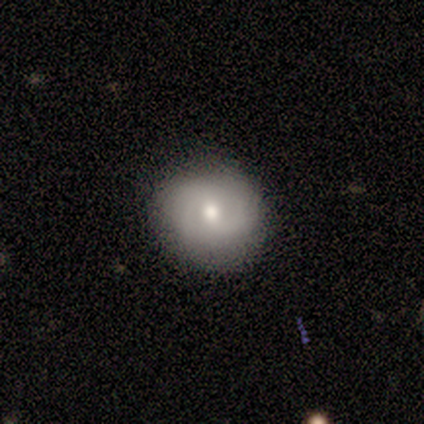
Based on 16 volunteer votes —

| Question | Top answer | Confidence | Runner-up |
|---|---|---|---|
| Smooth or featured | smooth | 56% | featured or disk (31%) |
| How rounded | round | 56% | in between (44%) |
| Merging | none | 86% | minor disturbance (14%) |